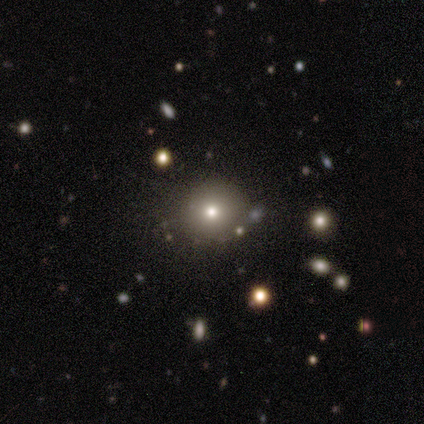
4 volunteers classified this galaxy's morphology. This appears to be a star or artifact, not a galaxy (50%).